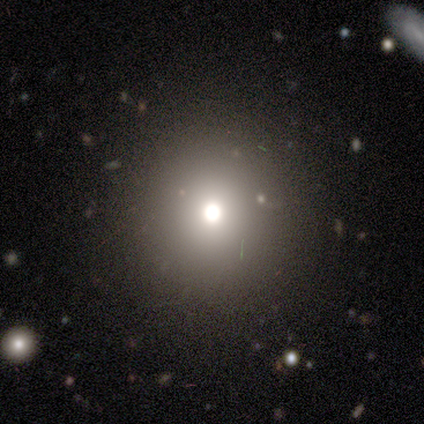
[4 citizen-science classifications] Volunteers were most divided on "smooth or featured": star or artifact: 50%, smooth: 25%, featured or disk: 25%.